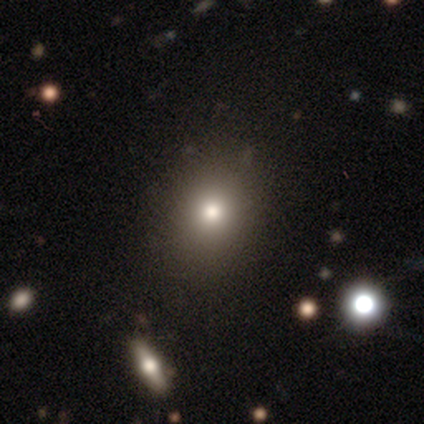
smooth 100%, featured or disk 0%, star or artifact 0%. Down the decision tree: how rounded — round (71%); merging — none (86%).